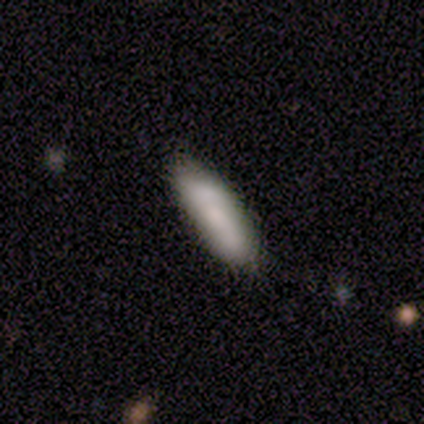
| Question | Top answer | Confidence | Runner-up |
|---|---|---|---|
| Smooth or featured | smooth | 50% | tied: featured or disk (50%) |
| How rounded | in between | 100% | — |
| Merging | none | 75% | minor disturbance (25%) |